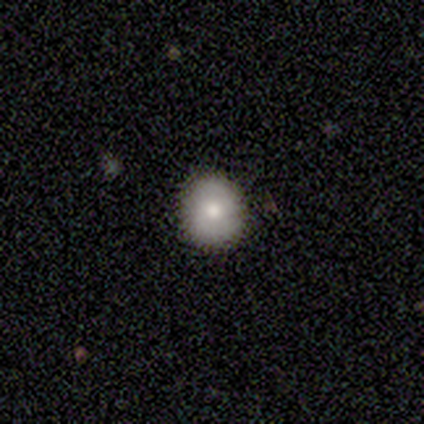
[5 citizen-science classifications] Smooth or featured? smooth (80%)
How rounded? round (100%)
Merging? none (100%)